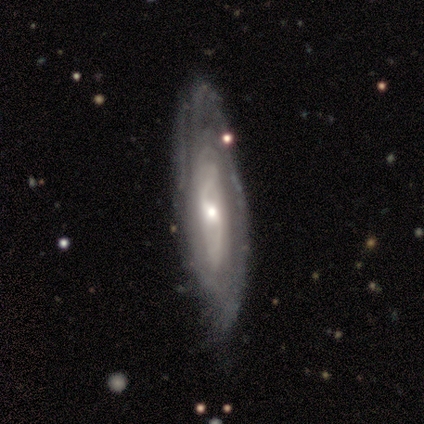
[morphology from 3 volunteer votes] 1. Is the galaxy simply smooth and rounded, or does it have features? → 100% featured or disk, 0% smooth, 0% star or artifact.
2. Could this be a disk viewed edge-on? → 100% no, 0% yes.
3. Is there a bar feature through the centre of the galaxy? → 33% strong (tied), 33% weak (tied), 33% no (tied).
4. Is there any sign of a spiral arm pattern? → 100% yes, 0% no.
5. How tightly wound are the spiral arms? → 100% tight, 0% medium, 0% loose.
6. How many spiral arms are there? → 67% can't tell, 33% 2, 0% 1, 0% 3, 0% 4, 0% more than 4.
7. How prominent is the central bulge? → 67% moderate, 33% small, 0% dominant, 0% large, 0% none.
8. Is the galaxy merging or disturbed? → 67% none, 33% minor disturbance, 0% major disturbance, 0% merger.